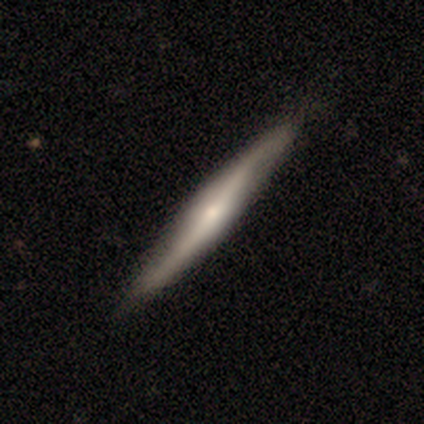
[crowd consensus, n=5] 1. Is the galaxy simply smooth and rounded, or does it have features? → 60% featured or disk, 40% smooth, 0% star or artifact.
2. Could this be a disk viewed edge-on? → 67% yes, 33% no.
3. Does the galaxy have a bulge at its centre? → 100% rounded, 0% boxy, 0% none.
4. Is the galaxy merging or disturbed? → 100% none, 0% minor disturbance, 0% major disturbance, 0% merger.